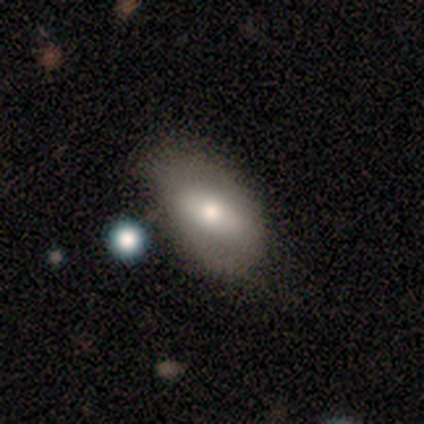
This appears to be a featured or disk galaxy (50%) with a weak bar (100%), no spiral arms (67%) and a small central bulge (67%). Merging: none (60%).